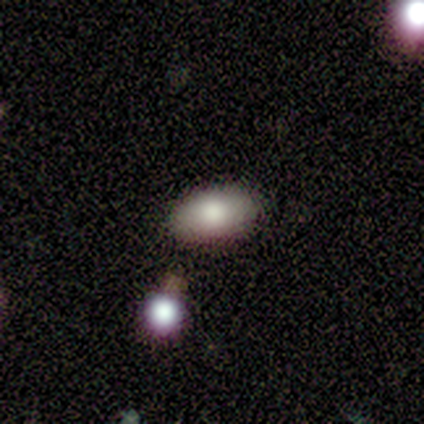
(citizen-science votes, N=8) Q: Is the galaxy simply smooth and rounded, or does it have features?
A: smooth — 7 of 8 (88%).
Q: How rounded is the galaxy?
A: in between — 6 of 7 (86%).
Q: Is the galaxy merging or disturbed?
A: none — 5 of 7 (71%).